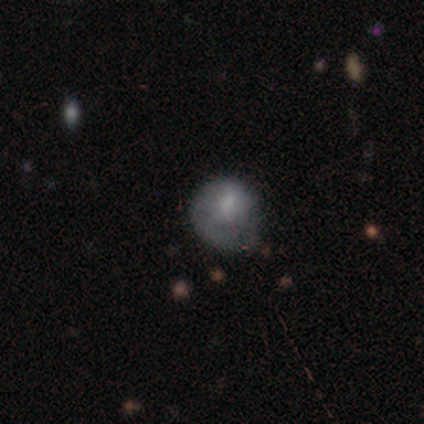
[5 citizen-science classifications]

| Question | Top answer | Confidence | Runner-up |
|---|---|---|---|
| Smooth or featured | smooth | 40% | tied: featured or disk (40%) |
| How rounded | round | 100% | — |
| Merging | none | 75% | major disturbance (25%) |